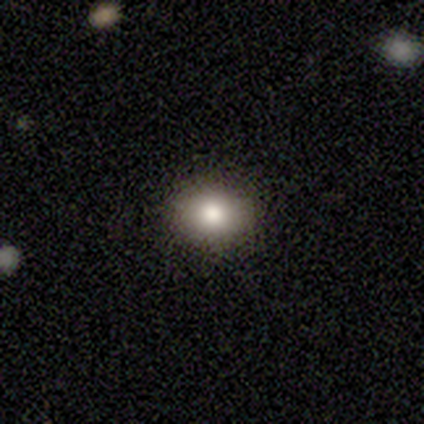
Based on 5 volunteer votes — Smooth or featured? smooth (100%)
How rounded? in between (80%)
Merging? none (100%)